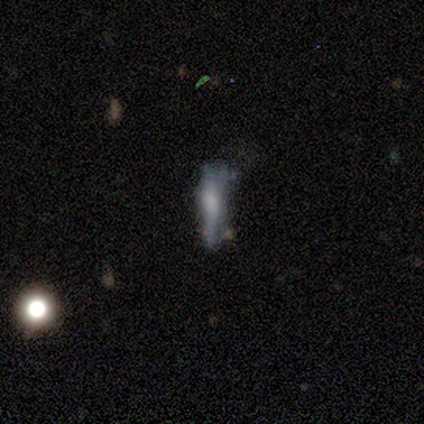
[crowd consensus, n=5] A smooth galaxy with no disk features (60%) that is cigar-shaped (67%).

Vote fractions:
- Smooth or featured? smooth: 60% / featured or disk: 40% / star or artifact: 0%
- How rounded? cigar-shaped: 67% / in between: 33% / round: 0%
- Merging? minor disturbance: 60% / none: 20% / major disturbance: 20% / merger: 0%